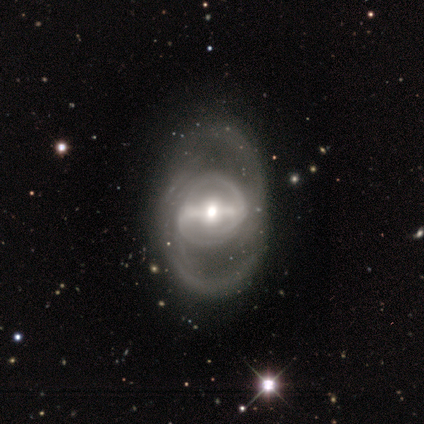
This appears to be a featured or disk galaxy (90%) with a strong bar (79%), 2 (59%) medium (36%, tied with loose) spiral arms (65%) and a moderate central bulge (62%). Merging: none (41%).